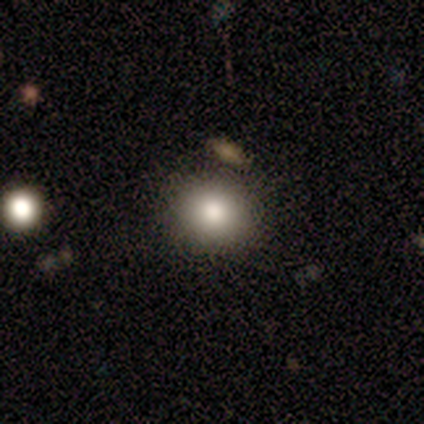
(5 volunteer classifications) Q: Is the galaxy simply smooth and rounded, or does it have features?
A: smooth — 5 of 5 (100%).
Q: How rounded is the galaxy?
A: round — 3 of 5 (60%).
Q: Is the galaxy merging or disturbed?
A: none — 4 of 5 (80%).